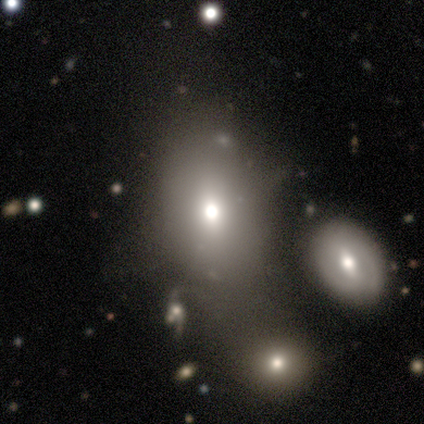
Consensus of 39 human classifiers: A smooth galaxy with no disk features (82%) that is in between round and cigar-shaped (69%). Merging: minor disturbance (29%).